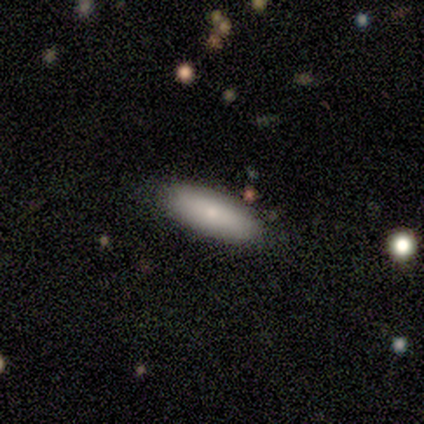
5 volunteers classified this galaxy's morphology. Q: Smooth or featured?
A: smooth (100%)
Q: How rounded?
A: in between (80%); runner-up: cigar-shaped (20%)
Q: Merging?
A: none (100%)